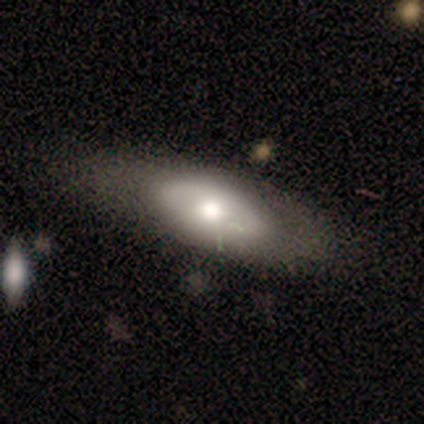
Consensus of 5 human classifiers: A featured or disk galaxy (60%) with no bar (100%), no spiral arms (100%) and a moderate central bulge (67%).

Vote fractions:
- Smooth or featured? featured or disk: 60% / smooth: 20% / star or artifact: 20%
- Edge-on disk? no: 100% / yes: 0%
- Bar? no: 100% / strong: 0% / weak: 0%
- Spiral arms? no: 100% / yes: 0%
- Bulge size? moderate: 67% / large: 33% / dominant: 0% / small: 0% / none: 0%
- Merging? none: 25% (tied) / minor disturbance: 25% (tied) / major disturbance: 25% (tied) / merger: 25% (tied)